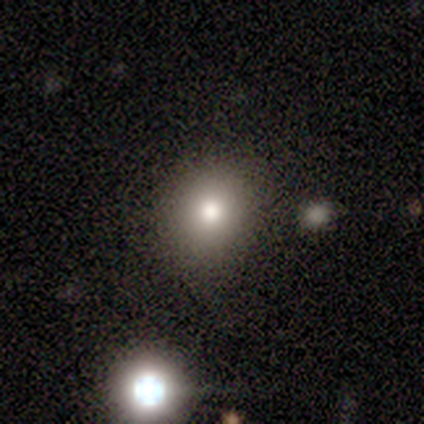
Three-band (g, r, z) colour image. It shows a smooth galaxy with no disk features (100%) that is round (75%). Merging: none (50%).